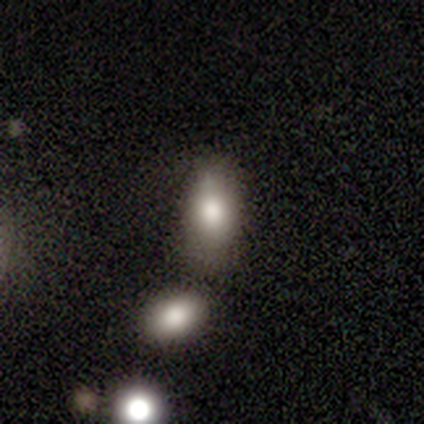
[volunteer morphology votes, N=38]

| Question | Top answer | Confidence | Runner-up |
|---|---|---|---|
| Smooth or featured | smooth | 74% | featured or disk (18%) |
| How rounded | in between | 82% | round (11%) |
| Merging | none | 69% | merger (17%) |